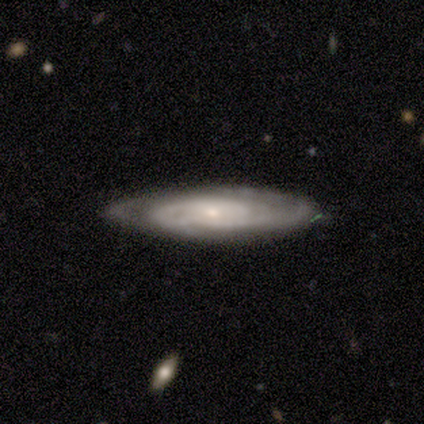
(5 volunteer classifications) Smooth or featured: featured or disk — 80% (smooth — 20%)
Edge-on disk: yes — 50% (tied with no — 50%)
Edge-on bulge: none — 50% (tied with rounded — 50%)
Merging: none — 100%